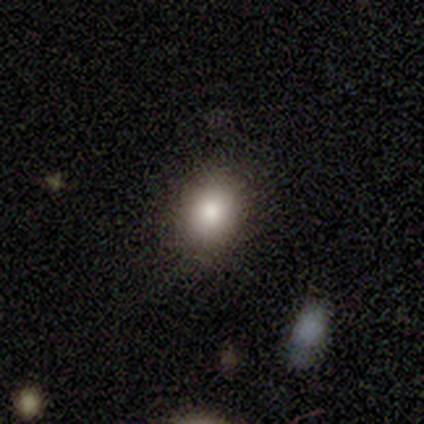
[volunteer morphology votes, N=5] Volunteers were most divided on "how rounded" (2-way tie): round: 50%, in between: 50%, cigar-shaped: 0%. More confident: merging — none (100%); smooth or featured — smooth (80%).